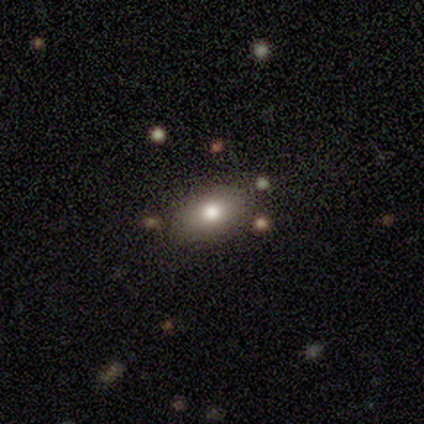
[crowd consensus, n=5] A smooth galaxy with no disk features (100%) that is in between round and cigar-shaped (60%). Merging: none (100%).